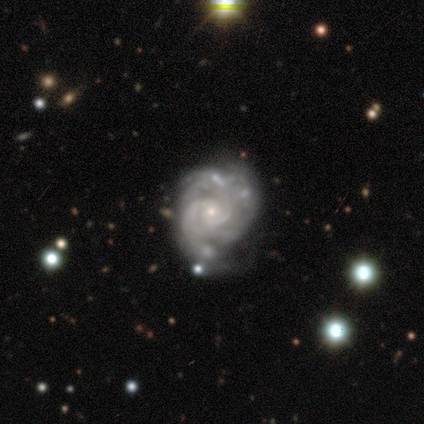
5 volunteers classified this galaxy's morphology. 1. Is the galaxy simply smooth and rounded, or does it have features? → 100% featured or disk, 0% smooth, 0% star or artifact.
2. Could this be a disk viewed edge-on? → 100% no, 0% yes.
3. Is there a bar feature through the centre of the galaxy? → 100% no, 0% strong, 0% weak.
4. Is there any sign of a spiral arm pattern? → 100% yes, 0% no.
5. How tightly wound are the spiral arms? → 80% tight, 20% medium, 0% loose.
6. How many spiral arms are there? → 60% 2, 20% 3, 20% can't tell, 0% 1, 0% 4, 0% more than 4.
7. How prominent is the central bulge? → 60% small, 40% moderate, 0% dominant, 0% large, 0% none.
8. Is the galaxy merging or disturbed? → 60% none, 40% minor disturbance, 0% major disturbance, 0% merger.